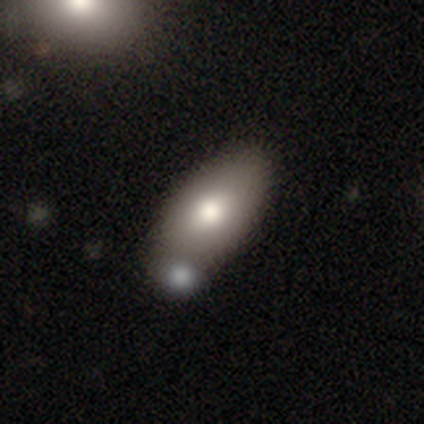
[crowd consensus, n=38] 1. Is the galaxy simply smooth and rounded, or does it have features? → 89% smooth, 8% featured or disk, 3% star or artifact.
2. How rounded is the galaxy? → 91% in between, 6% round, 3% cigar-shaped.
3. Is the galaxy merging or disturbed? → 65% none, 24% merger, 8% minor disturbance, 3% major disturbance.